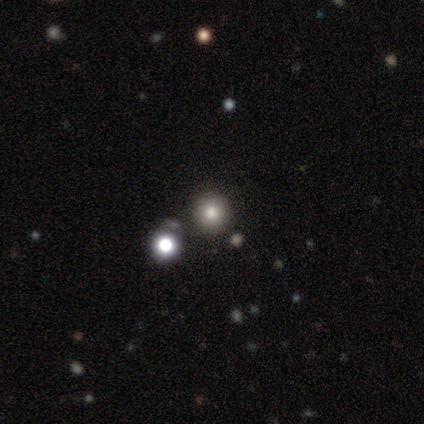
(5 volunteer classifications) This appears to be a smooth galaxy with no disk features (60%) that is round (100%). Merging: none (100%).